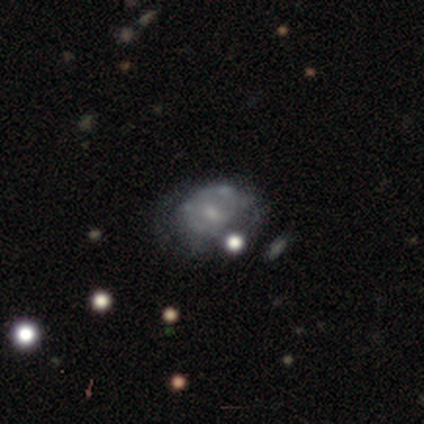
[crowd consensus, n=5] Overall: featured or disk (80%). Edge-on disk: no (75%). Bar: weak (67%; no 33%). Spiral arms: no (100%). Bulge size: small (67%; moderate 33%). Merging: none (40%, tied with major disturbance).